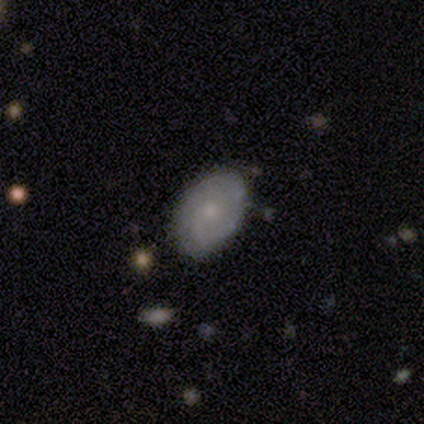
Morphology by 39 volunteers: Smooth or featured: featured or disk — 54% (smooth — 38%)
Edge-on disk: no — 95% (yes — 5%)
Bar: no — 95% (strong — 5%)
Spiral arms: yes — 80% (no — 20%)
Spiral winding: tight — 38% (tied with medium — 38%)
Spiral arm count: 1 — 50% (can't tell — 31%)
Bulge size: small — 75% (moderate — 10%)
Merging: none — 86% (minor disturbance — 11%)